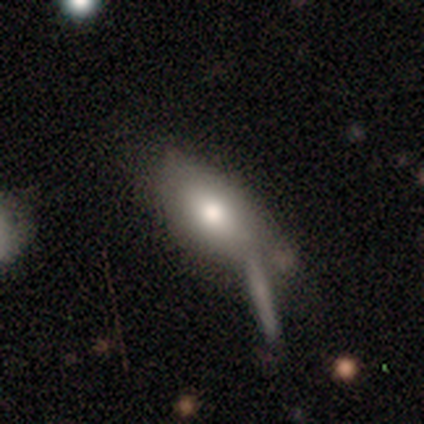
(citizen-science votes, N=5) smooth-or-featured: smooth: 60% | featured or disk: 40% | star or artifact: 0%
  how-rounded: in between: 100% | round: 0% | cigar-shaped: 0%
  merging: none: 60% | minor disturbance: 20% | merger: 20% | major disturbance: 0%